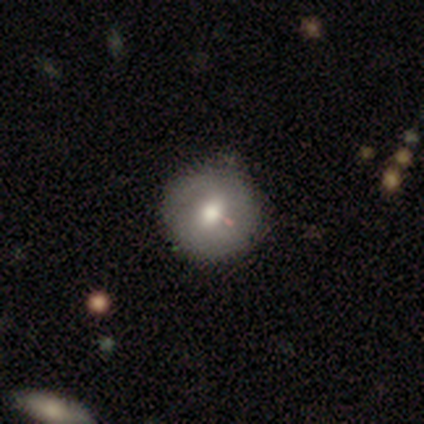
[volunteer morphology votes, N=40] Overall: smooth (62%; featured or disk 28%). How rounded: round (100%). Merging: none (58%).